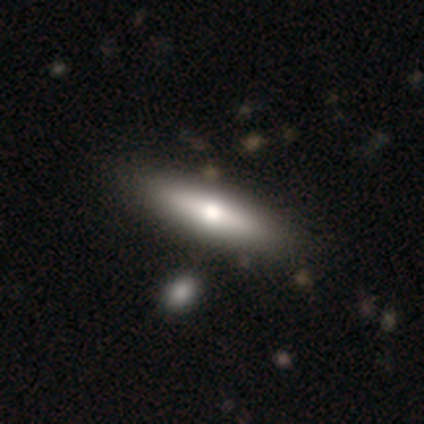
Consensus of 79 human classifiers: A smooth galaxy with no disk features (68%) that is cigar-shaped (63%).

Vote fractions:
- Smooth or featured? smooth: 68% / featured or disk: 28% / star or artifact: 4%
- How rounded? cigar-shaped: 63% / in between: 35% / round: 2%
- Merging? none: 39% / minor disturbance: 9% / merger: 9% / major disturbance: 1%